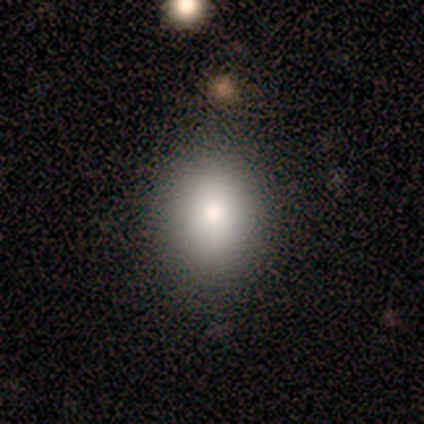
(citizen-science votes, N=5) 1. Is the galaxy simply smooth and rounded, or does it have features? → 100% smooth, 0% featured or disk, 0% star or artifact.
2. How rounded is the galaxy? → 60% in between, 40% round, 0% cigar-shaped.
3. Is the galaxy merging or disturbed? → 80% none, 20% major disturbance, 0% minor disturbance, 0% merger.